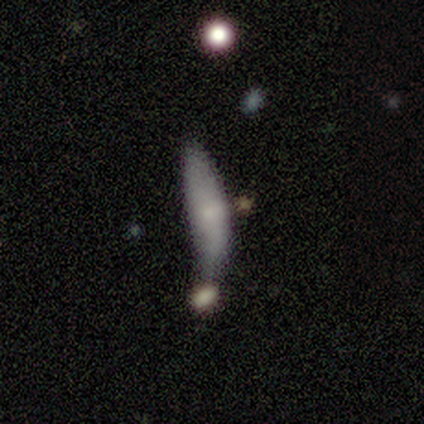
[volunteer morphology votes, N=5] type=smooth (60%); roundness=cigar-shaped (100%); merging=minor disturbance (40%, tied with merger).